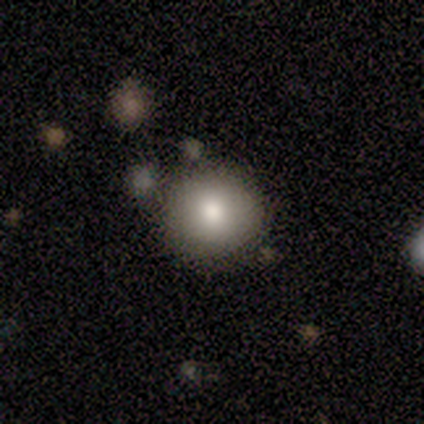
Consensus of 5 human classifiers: Smooth or featured? smooth (80%)
How rounded? round (75%)
Merging? none (100%)